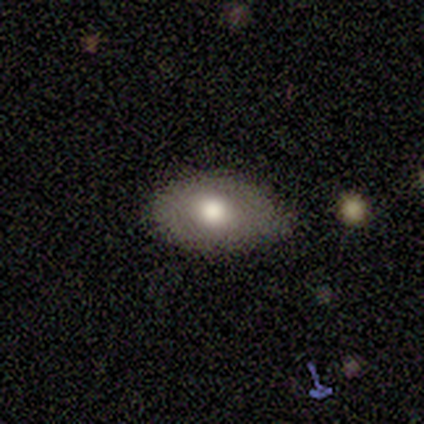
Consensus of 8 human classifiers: Smooth or featured: smooth — 75% (featured or disk — 25%)
How rounded: in between — 100%
Merging: none — 88% (minor disturbance — 12%)